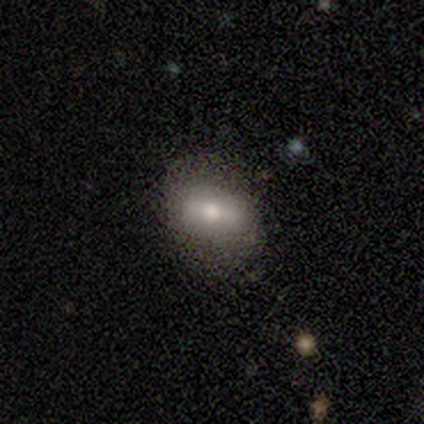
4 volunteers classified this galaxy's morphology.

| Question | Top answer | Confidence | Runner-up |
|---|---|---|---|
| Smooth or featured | smooth | 75% | featured or disk (25%) |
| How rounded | round | 67% | in between (33%) |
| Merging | none | 100% | — |